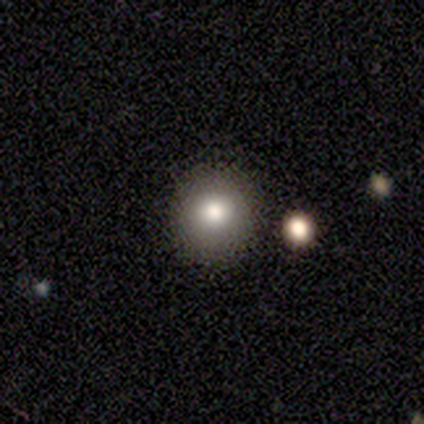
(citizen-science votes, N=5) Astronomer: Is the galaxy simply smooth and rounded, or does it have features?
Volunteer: smooth — 60%.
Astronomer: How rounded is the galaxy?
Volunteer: round — 100%.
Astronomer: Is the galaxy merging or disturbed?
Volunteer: none — 100%.